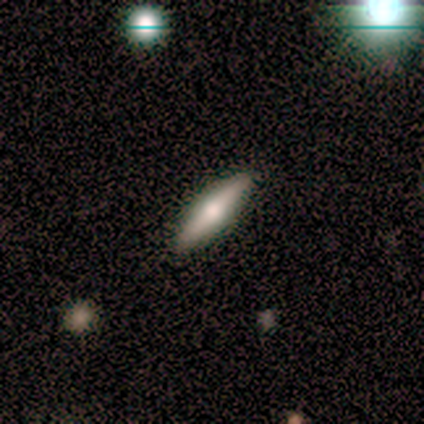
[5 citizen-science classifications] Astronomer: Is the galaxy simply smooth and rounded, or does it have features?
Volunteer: smooth — 40%, tied with featured or disk at 40%.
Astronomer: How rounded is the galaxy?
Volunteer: in between — 50%, tied with cigar-shaped at 50%.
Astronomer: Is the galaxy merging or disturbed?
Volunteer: none — 75%.